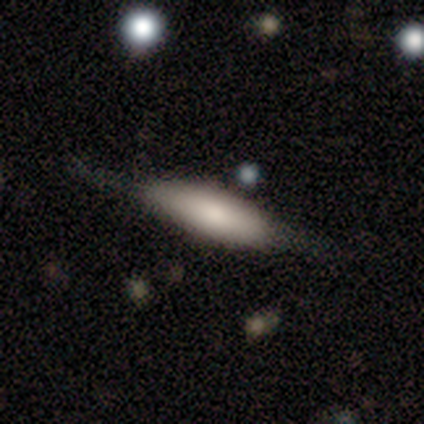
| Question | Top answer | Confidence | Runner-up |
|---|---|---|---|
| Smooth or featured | smooth | 83% | featured or disk (17%) |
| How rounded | cigar-shaped | 80% | in between (20%) |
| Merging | none | 100% | — |